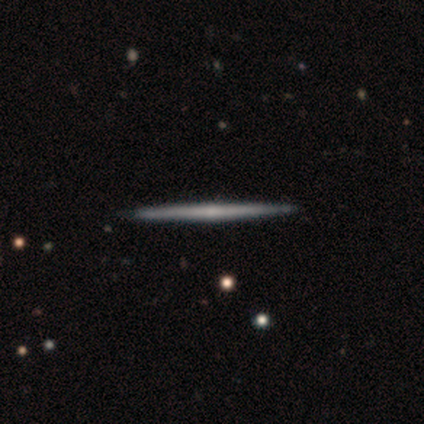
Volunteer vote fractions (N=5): Volunteers were most divided on "smooth or featured": featured or disk: 60%, smooth: 40%, star or artifact: 0%. More confident: edge-on disk — yes (100%); merging — none (100%); edge-on bulge — rounded (67%).